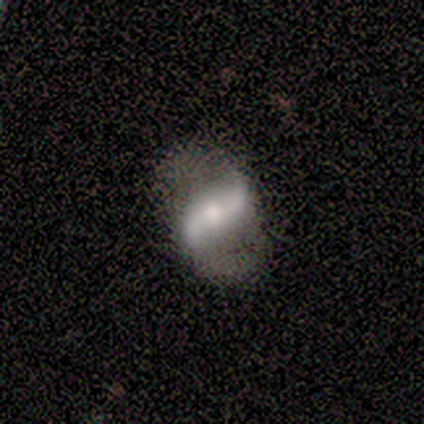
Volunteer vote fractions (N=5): This is clearly a featured or disk galaxy (80%). It is clearly not viewed edge-on (100%). Bar: likely no (75%). Spiral arm pattern: clearly yes (100%). Spiral arm count: likely 2 (75%). Spiral winding: clearly loose (100%). Central bulge: likely moderate (75%). Merging: likely none (60%).